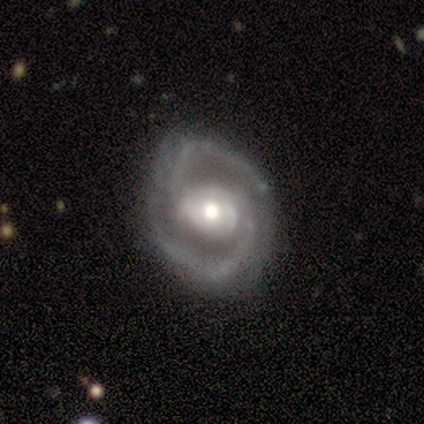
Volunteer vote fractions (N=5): Smooth or featured?
  - featured or disk: 80% *
  - star or artifact: 20%
  - smooth: 0%
Edge-on disk?
  - no: 75% *
  - yes: 25%
Bar?
  - strong: 33% * (tied)
  - weak: 33% * (tied)
  - no: 33% * (tied)
Spiral arms?
  - yes: 100% *
  - no: 0%
Spiral winding?
  - tight: 67% *
  - loose: 33%
  - medium: 0%
Spiral arm count?
  - 2: 100% *
  - 1: 0%
  - 3: 0%
  - 4: 0%
  - more than 4: 0%
  - can't tell: 0%
Bulge size?
  - moderate: 67% *
  - large: 33%
  - dominant: 0%
  - small: 0%
  - none: 0%
Merging?
  - none: 50% * (tied)
  - minor disturbance: 50% * (tied)
  - major disturbance: 0%
  - merger: 0%